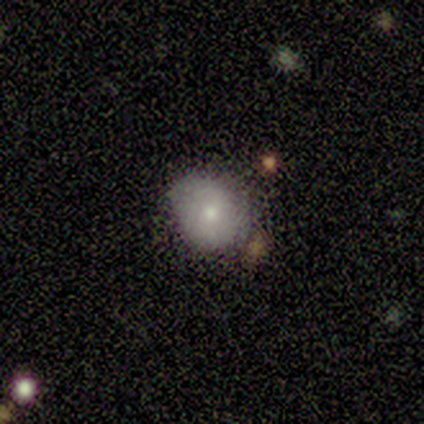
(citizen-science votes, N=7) smooth_or_featured: smooth (p=0.86) [alt: star or artifact p=0.14]
how_rounded: round (p=0.83) [alt: in between p=0.17]
merging: none (p=0.50) [alt: minor disturbance p=0.33]